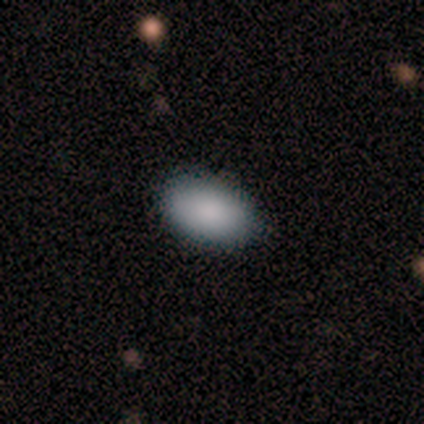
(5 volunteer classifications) Smooth or featured? smooth (100%)
How rounded? in between (100%)
Merging? none (80%)